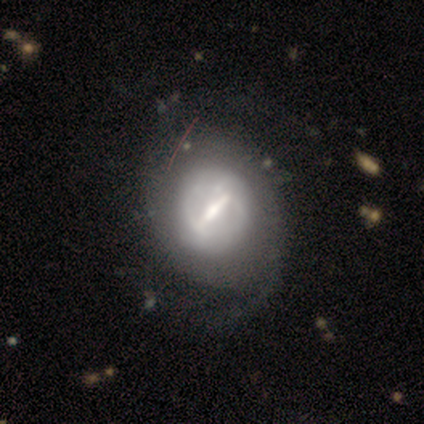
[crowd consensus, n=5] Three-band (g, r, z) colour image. It shows a featured or disk galaxy (80%) with a strong bar (75%), 2 (100%) tight (100%) spiral arms (50%, tied with no) and a moderate central bulge (75%). Merging: none (60%).